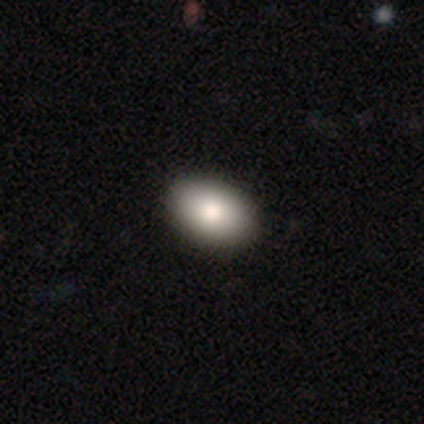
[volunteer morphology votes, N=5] Smooth or featured: smooth — 60% (star or artifact — 40%)
How rounded: in between — 100%
Merging: none — 100%